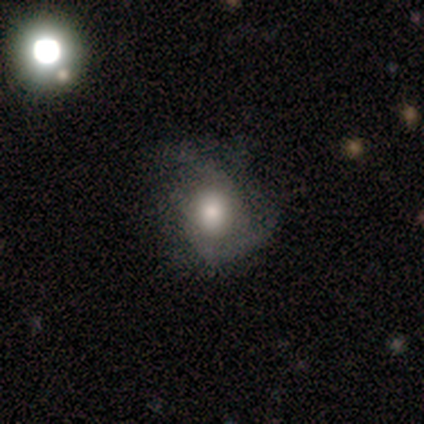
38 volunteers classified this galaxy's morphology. Volunteers were most divided on "merging": none: 43%, major disturbance: 38%, minor disturbance: 19%, merger: 0%. Remaining: edge-on disk — no (95%); spiral arms — yes (86%); bar — no (67%); spiral winding — medium (61%); spiral arm count — 2 (61%); smooth or featured — featured or disk (58%); bulge size — large (38%).